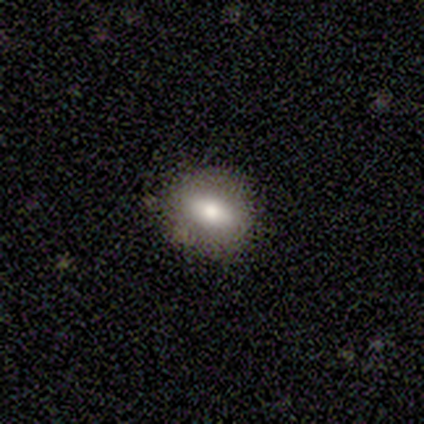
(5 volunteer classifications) Volunteers were most divided on "smooth or featured": smooth: 80%, featured or disk: 20%, star or artifact: 0%. More confident: how rounded — in between (100%); merging — none (100%).